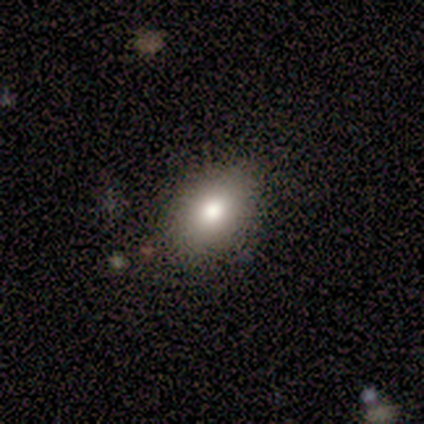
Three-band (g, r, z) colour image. It shows a smooth galaxy with no disk features (100%) that is in between round and cigar-shaped (100%). Merging: none (100%).